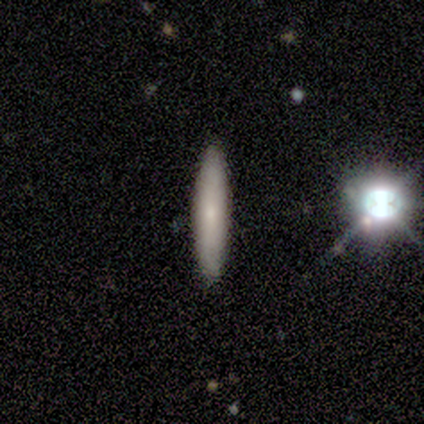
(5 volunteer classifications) Q: Smooth or featured?
A: smooth (80%); runner-up: star or artifact (20%)
Q: How rounded?
A: cigar-shaped (100%)
Q: Merging?
A: none (100%)